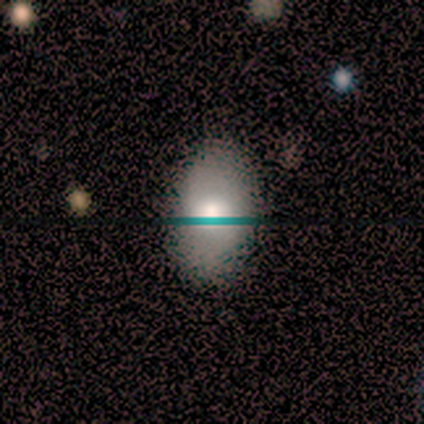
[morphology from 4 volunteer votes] A smooth galaxy with no disk features (75%) that is in between round and cigar-shaped (100%). Merging: none (75%).